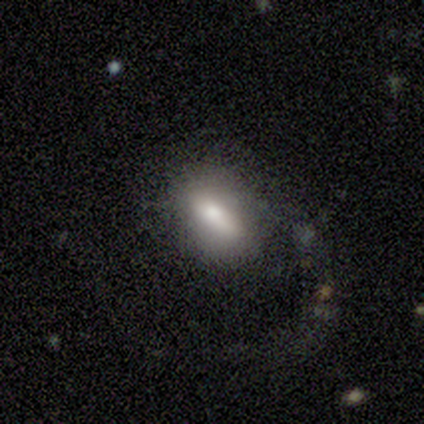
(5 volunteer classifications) Smooth or featured? 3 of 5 (60%) said smooth. How rounded? 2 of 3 (67%) said in between. Merging? 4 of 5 (80%) said major disturbance.